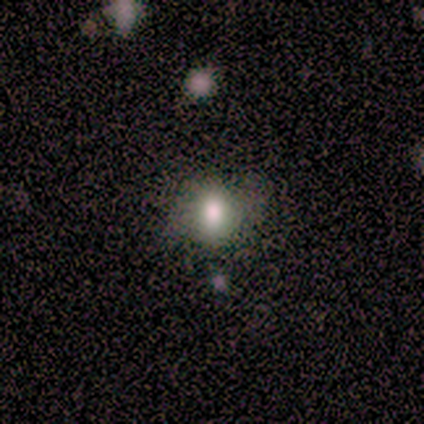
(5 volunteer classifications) Morphology: type=smooth (80%); roundness=round (50%, tied with in between); merging=none (100%).